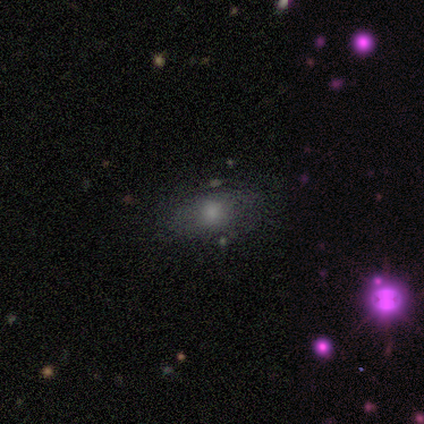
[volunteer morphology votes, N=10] Overall: smooth (60%; featured or disk 30%). How rounded: in between (100%). Merging: none (78%).